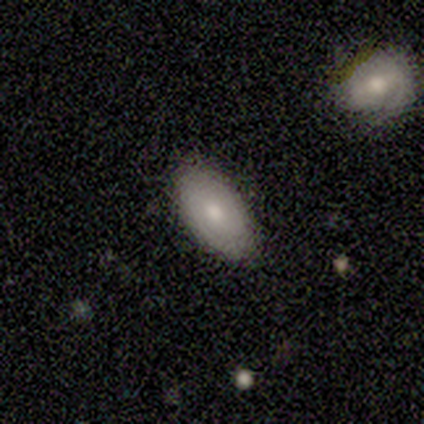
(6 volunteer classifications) smooth 50% (tied), star or artifact 50% (tied), featured or disk 0%. Down the decision tree: how rounded — in between (100%); merging — none (100%).